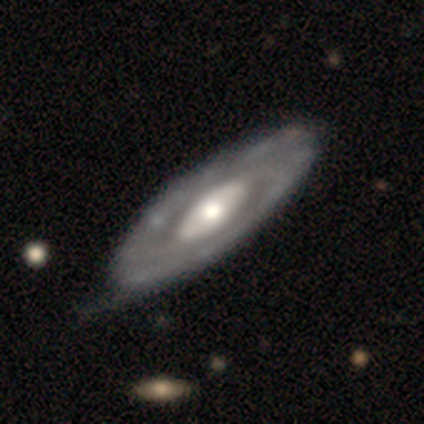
Smooth or featured? featured or disk (100%)
Edge-on disk? no (80%)
Bar? weak (50%, tied with no)
Spiral arms? yes (100%)
Spiral winding? tight (75%)
Spiral arm count? 2 (75%)
Bulge size? small (75%)
Merging? none (80%)